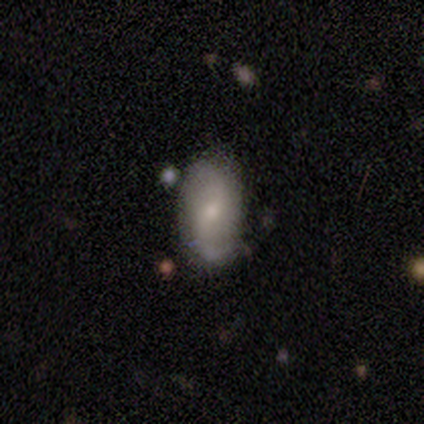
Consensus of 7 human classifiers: A smooth galaxy with no disk features (57%) that is in between round and cigar-shaped (75%).

Vote fractions:
- Smooth or featured? smooth: 57% / featured or disk: 43% / star or artifact: 0%
- How rounded? in between: 75% / round: 25% / cigar-shaped: 0%
- Merging? none: 86% / minor disturbance: 14% / major disturbance: 0% / merger: 0%